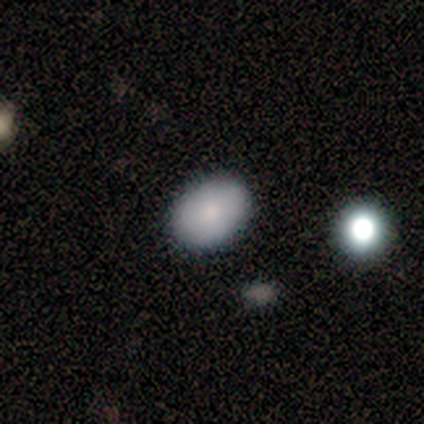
Q: Smooth or featured?
A: smooth (86%); runner-up: featured or disk (12%)
Q: How rounded?
A: in between (81%); runner-up: round (19%)
Q: Merging?
A: none (92%); runner-up: minor disturbance (4%)